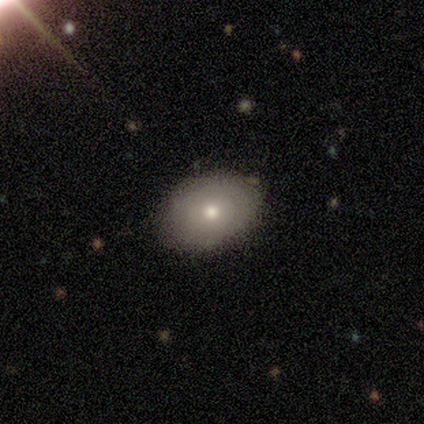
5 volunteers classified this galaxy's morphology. Overall: smooth (60%; featured or disk 40%). How rounded: round (67%; in between 33%). Merging: none (100%).